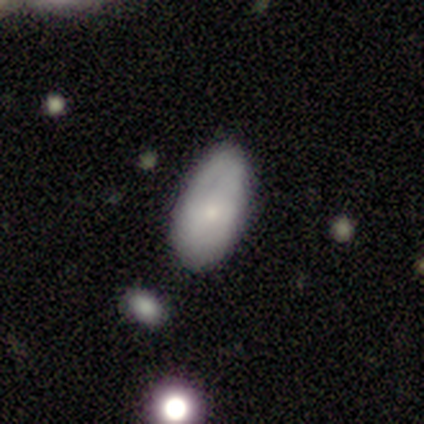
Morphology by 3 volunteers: Smooth or featured?
  - smooth: 100% *
  - featured or disk: 0%
  - star or artifact: 0%
How rounded?
  - in between: 100% *
  - round: 0%
  - cigar-shaped: 0%
Merging?
  - minor disturbance: 67% *
  - none: 33%
  - major disturbance: 0%
  - merger: 0%